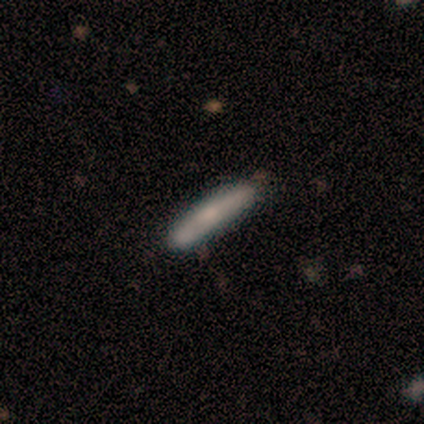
Smooth or featured?
  - smooth: 80% *
  - featured or disk: 20%
  - star or artifact: 0%
How rounded?
  - cigar-shaped: 100% *
  - round: 0%
  - in between: 0%
Merging?
  - none: 100% *
  - minor disturbance: 0%
  - major disturbance: 0%
  - merger: 0%